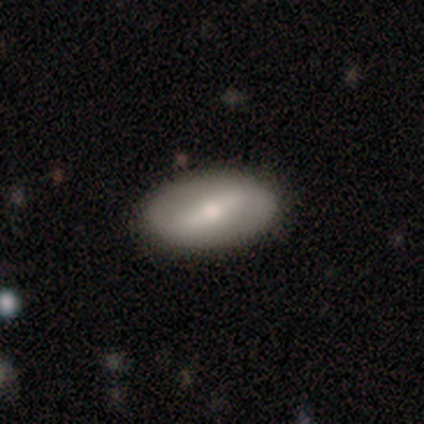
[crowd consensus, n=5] Smooth or featured: smooth — 60% (featured or disk — 40%)
How rounded: in between — 100%
Merging: none — 100%